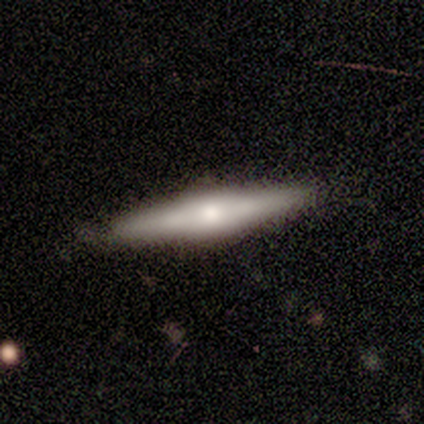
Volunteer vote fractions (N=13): A featured or disk galaxy (46%) viewed edge-on (100%) with a rounded central bulge (67%). Merging: none (91%).